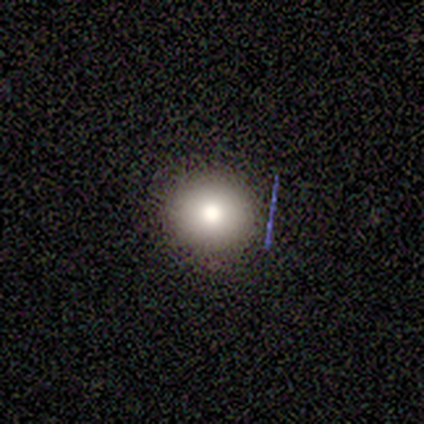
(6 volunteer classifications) Volunteers were most divided on "smooth or featured": smooth: 83%, featured or disk: 17%, star or artifact: 0%. More confident: how rounded — round (100%); merging — none (83%).